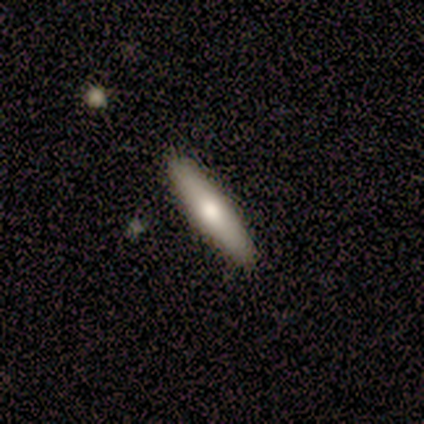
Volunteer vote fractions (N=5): Smooth or featured? featured or disk (60%)
Edge-on disk? yes (67%)
Edge-on bulge? rounded (100%)
Merging? none (100%)